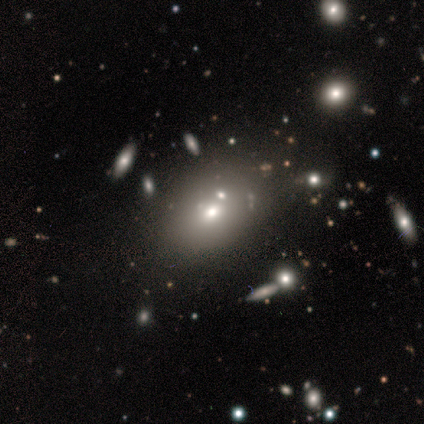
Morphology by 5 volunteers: Q: Smooth or featured?
A: smooth (80%); runner-up: star or artifact (20%)
Q: How rounded?
A: in between (75%); runner-up: round (25%)
Q: Merging?
A: none (50%); tied with: minor disturbance (50%)